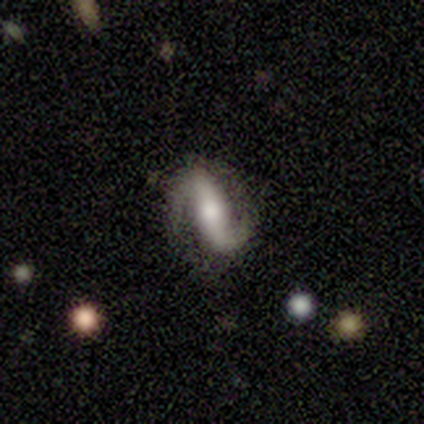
Morphology: type=featured or disk (80%); edge-on=no (100%); bar=strong (50%); spiral arms=yes (100%); winding=loose (50%); arm count=2 (100%); bulge=large (50%, tied with moderate); merging=none (100%).